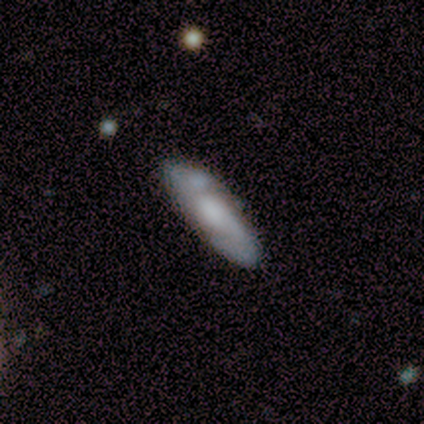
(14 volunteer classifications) Smooth or featured? featured or disk (57%)
Edge-on disk? no (100%)
Bar? no (62%)
Spiral arms? yes (75%)
Spiral winding? medium (50%)
Spiral arm count? 2 (100%)
Bulge size? moderate (50%)
Merging? none (77%)